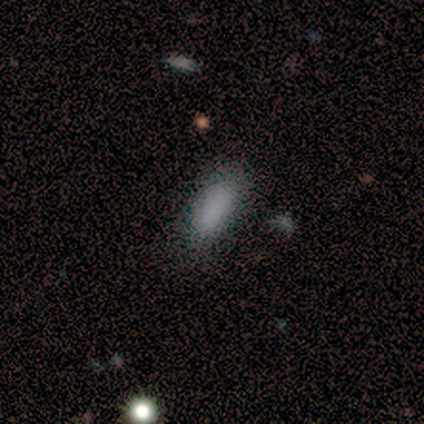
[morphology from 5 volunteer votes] Smooth or featured? 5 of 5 (100%) said smooth. How rounded? 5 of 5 (100%) said in between. Merging? 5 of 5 (100%) said none.